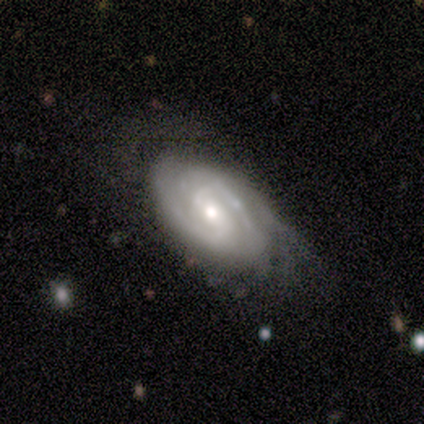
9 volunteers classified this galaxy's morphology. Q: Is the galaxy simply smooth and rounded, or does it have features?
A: featured or disk — 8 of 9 (89%).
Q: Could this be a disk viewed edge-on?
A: no — 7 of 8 (88%).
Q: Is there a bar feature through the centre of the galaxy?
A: weak — 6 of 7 (86%).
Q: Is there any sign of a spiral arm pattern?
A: yes — 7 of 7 (100%).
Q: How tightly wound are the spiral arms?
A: tight — 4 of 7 (57%).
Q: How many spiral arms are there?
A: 2 — 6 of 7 (86%).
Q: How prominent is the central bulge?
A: moderate — 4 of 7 (57%).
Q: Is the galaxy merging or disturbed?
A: minor disturbance — 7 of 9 (78%).